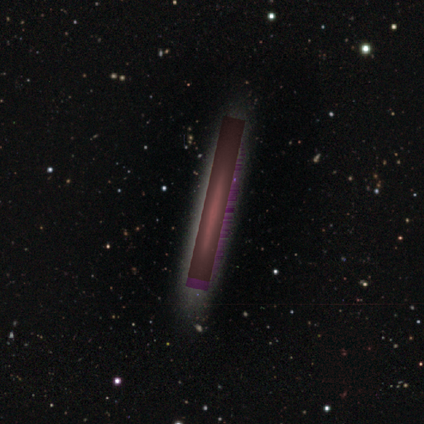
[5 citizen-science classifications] Overall: star or artifact (60%; smooth 20%).